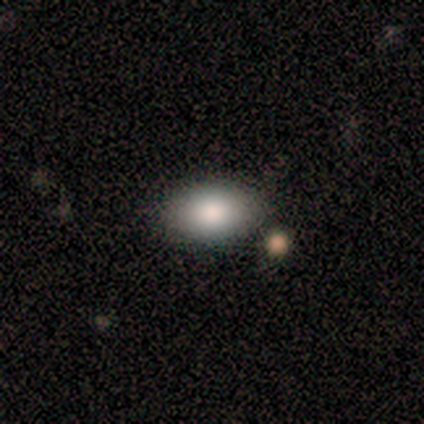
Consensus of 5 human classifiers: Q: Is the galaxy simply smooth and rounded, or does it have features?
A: smooth — 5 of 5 (100%).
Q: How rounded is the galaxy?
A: in between — 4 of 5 (80%).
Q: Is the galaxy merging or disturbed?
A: none — 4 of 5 (80%).